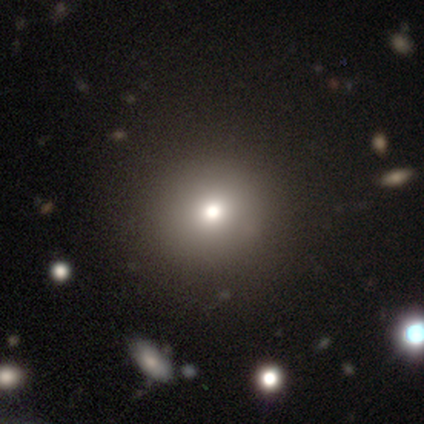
smooth_or_featured: smooth (p=0.33) [tied with: featured or disk p=0.33, star or artifact p=0.33]
how_rounded: round (p=1.00)
merging: none (p=1.00)